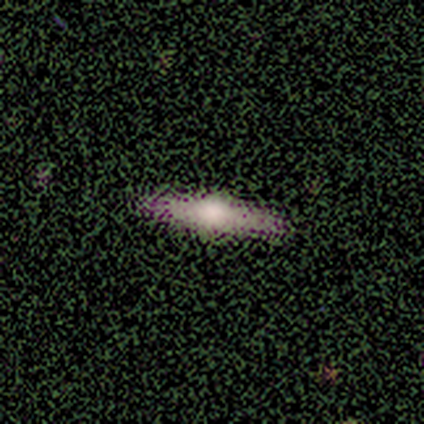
Smooth or featured? 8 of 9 (89%) said featured or disk. Edge-on disk? 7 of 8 (88%) said yes. Edge-on bulge? 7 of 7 (100%) said rounded. Merging? 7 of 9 (78%) said none.